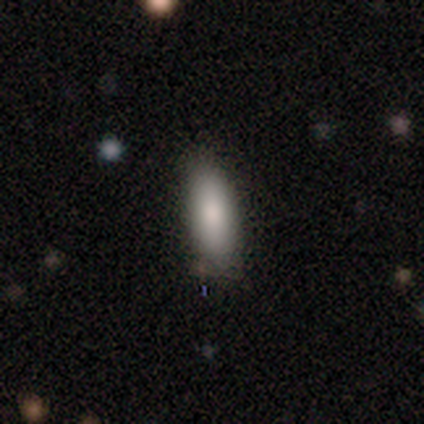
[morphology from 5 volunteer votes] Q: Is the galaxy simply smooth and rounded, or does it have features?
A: smooth — 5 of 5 (100%).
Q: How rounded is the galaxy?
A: in between — 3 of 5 (60%).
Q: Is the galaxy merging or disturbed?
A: none — 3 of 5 (60%).